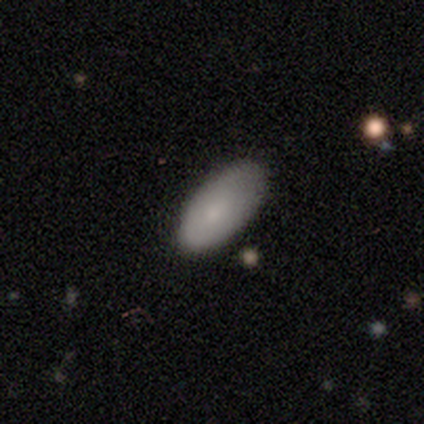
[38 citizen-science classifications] This is likely a smooth galaxy (76%). How rounded: clearly in between (90%). Merging: likely none (79%).